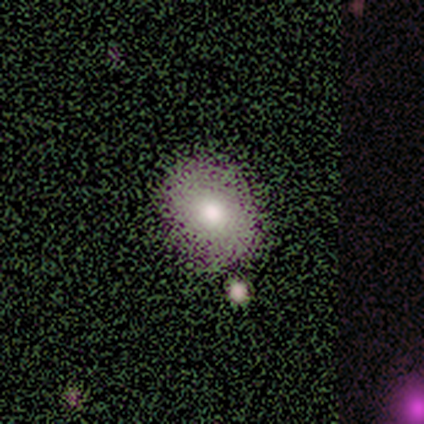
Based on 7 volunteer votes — Smooth or featured?
  - smooth: 100% *
  - featured or disk: 0%
  - star or artifact: 0%
How rounded?
  - in between: 57% *
  - round: 43%
  - cigar-shaped: 0%
Merging?
  - none: 86% *
  - merger: 14%
  - minor disturbance: 0%
  - major disturbance: 0%